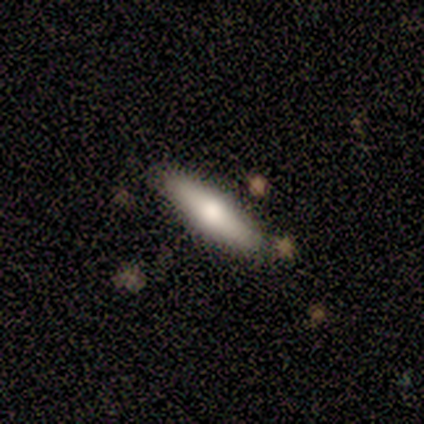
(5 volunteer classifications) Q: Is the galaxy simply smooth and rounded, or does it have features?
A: smooth — 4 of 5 (80%).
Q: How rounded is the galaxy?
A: cigar-shaped — 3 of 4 (75%).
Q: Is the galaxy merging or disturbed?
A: none — 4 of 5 (80%).